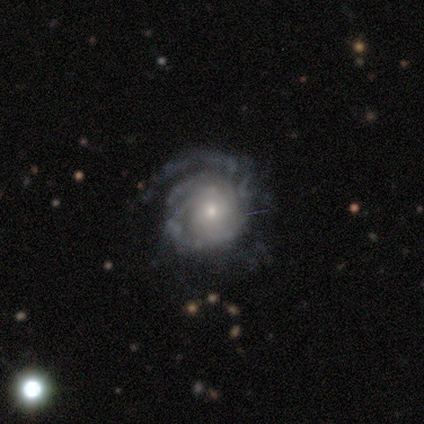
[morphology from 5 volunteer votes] smooth-or-featured: featured or disk: 60% | smooth: 20% | star or artifact: 20%
  disk-edge-on: no: 100% | yes: 0%
    bar: weak: 67% | no: 33% | strong: 0%
    has-spiral-arms: yes: 100% | no: 0%
      spiral-winding: tight: 67% | loose: 33% | medium: 0%
      spiral-arm-count: can't tell: 67% | 4: 33% | 1: 0% | 2: 0% | 3: 0% | more than 4: 0%
    bulge-size: small: 100% | dominant: 0% | large: 0% | moderate: 0% | none: 0%
  merging: minor disturbance: 50% | none: 25% | merger: 25% | major disturbance: 0%